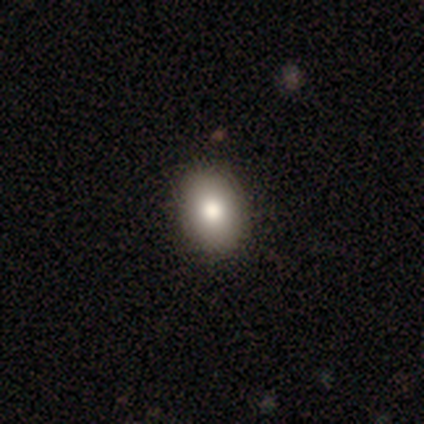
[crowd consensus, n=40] Smooth or featured?
  - smooth: 78% *
  - featured or disk: 20%
  - star or artifact: 2%
How rounded?
  - in between: 65% *
  - round: 35%
  - cigar-shaped: 0%
Merging?
  - none: 69% *
  - minor disturbance: 5%
  - major disturbance: 0%
  - merger: 0%